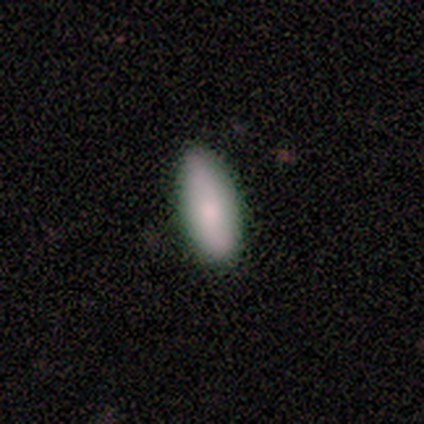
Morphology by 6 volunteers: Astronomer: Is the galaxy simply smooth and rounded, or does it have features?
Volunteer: smooth — 100%.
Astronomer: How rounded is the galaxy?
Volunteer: in between — 100%.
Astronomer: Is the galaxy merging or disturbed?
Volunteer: none — 100%.